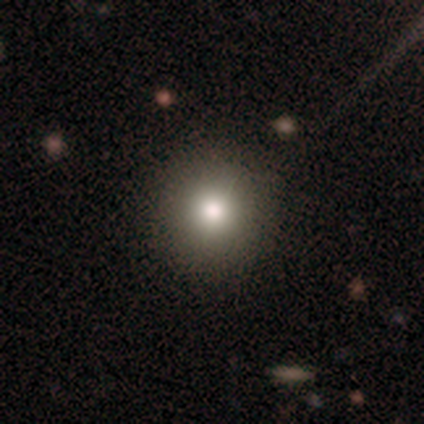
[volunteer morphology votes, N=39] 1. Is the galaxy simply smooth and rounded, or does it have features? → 92% smooth, 5% star or artifact, 3% featured or disk.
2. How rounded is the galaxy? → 92% round, 8% in between, 0% cigar-shaped.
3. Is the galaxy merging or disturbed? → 92% none, 8% minor disturbance, 0% major disturbance, 0% merger.